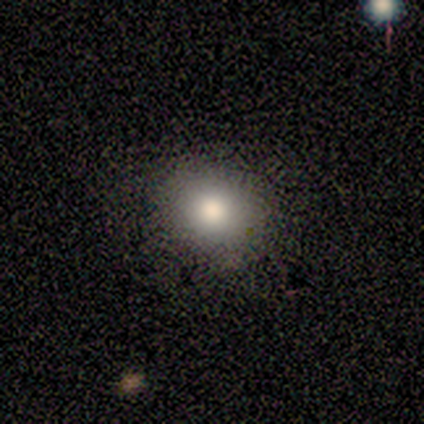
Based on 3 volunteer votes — Smooth or featured?
  - smooth: 100% *
  - featured or disk: 0%
  - star or artifact: 0%
How rounded?
  - round: 67% *
  - in between: 33%
  - cigar-shaped: 0%
Merging?
  - none: 67% *
  - minor disturbance: 33%
  - major disturbance: 0%
  - merger: 0%